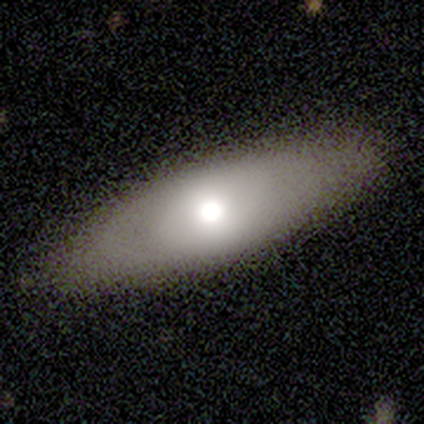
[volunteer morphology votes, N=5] Smooth or featured: smooth — 80% (featured or disk — 20%)
How rounded: in between — 50% (tied with cigar-shaped — 50%)
Merging: none — 60% (minor disturbance — 40%)